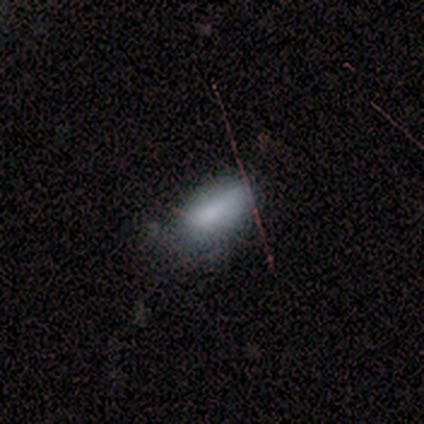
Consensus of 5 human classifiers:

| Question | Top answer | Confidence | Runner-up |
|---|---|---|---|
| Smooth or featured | smooth | 100% | — |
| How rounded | in between | 100% | — |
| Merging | none | 60% | minor disturbance (40%) |